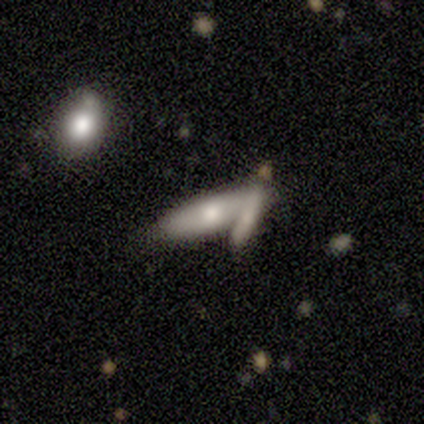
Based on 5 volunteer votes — This appears to be a smooth galaxy with no disk features (80%) that is cigar-shaped (75%). Merging: merger (60%).